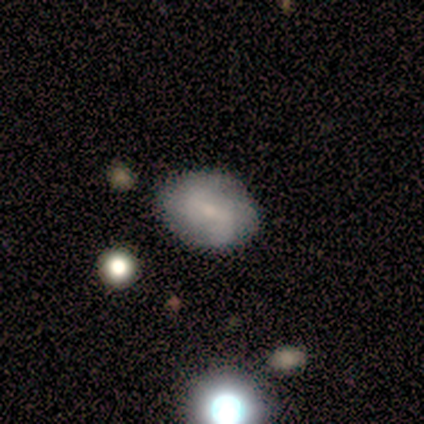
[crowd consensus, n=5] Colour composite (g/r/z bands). It shows a smooth galaxy with no disk features (40%, tied with featured or disk) that is round (100%). Merging: none (100%).